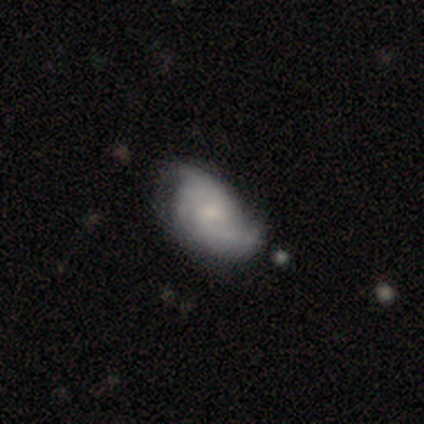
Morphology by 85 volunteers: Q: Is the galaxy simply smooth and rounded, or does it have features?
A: featured or disk — 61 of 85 (72%).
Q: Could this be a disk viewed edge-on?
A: no — 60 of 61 (98%).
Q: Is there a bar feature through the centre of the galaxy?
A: no — 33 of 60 (55%).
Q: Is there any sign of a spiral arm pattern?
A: yes — 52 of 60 (87%).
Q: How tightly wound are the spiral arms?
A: medium — 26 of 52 (50%).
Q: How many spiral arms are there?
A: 2 — 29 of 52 (56%).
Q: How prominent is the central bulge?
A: small — 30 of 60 (50%).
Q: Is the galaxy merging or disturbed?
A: none — 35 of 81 (43%).